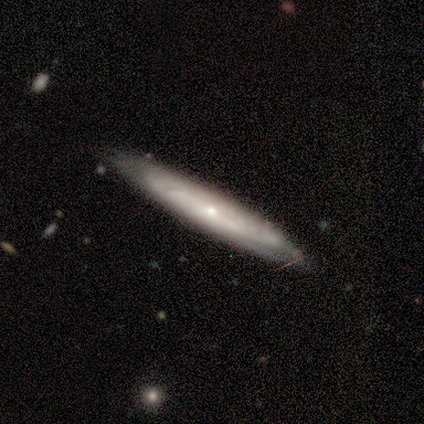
This appears to be a featured or disk galaxy (100%) with no bar (100%), tight (33%, tied with medium and loose) spiral arms (75%) and a small central bulge (75%). Merging: none (75%).